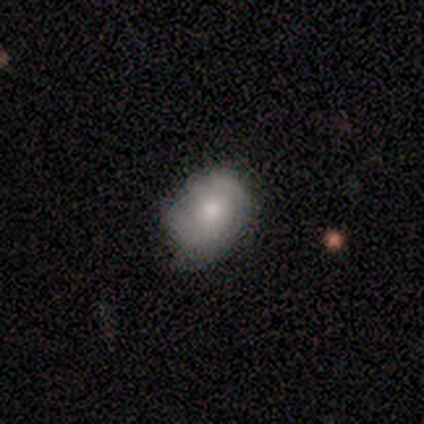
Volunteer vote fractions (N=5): Smooth or featured: smooth — 60% (featured or disk — 40%)
How rounded: in between — 100%
Merging: none — 60% (minor disturbance — 20%)